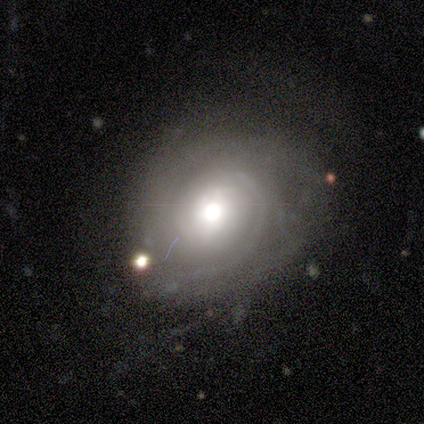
Q: Smooth or featured?
A: featured or disk (100%)
Q: Edge-on disk?
A: no (100%)
Q: Bar?
A: weak (50%); runner-up: strong (25%)
Q: Spiral arms?
A: yes (75%); runner-up: no (25%)
Q: Spiral winding?
A: medium (67%); runner-up: tight (33%)
Q: Spiral arm count?
A: can't tell (67%); runner-up: 2 (33%)
Q: Bulge size?
A: moderate (100%)
Q: Merging?
A: none (50%); tied with: minor disturbance (50%)